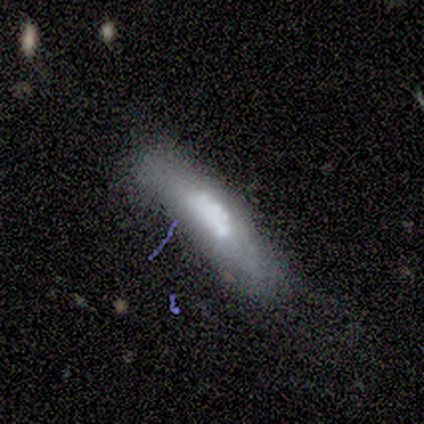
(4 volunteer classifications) A featured or disk galaxy (75%) with no bar (100%), no spiral arms (100%) and a small central bulge (67%).

Vote fractions:
- Smooth or featured? featured or disk: 75% / smooth: 25% / star or artifact: 0%
- Edge-on disk? no: 100% / yes: 0%
- Bar? no: 100% / strong: 0% / weak: 0%
- Spiral arms? no: 100% / yes: 0%
- Bulge size? small: 67% / moderate: 33% / dominant: 0% / large: 0% / none: 0%
- Merging? minor disturbance: 50% (tied) / merger: 50% (tied) / none: 0% / major disturbance: 0%